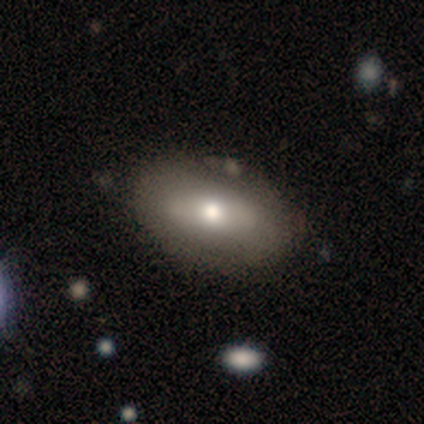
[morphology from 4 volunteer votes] Smooth or featured? 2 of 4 (50%, tied with featured or disk) said smooth. How rounded? 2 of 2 (100%) said in between. Merging? 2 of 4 (50%, tied with minor disturbance) said none.